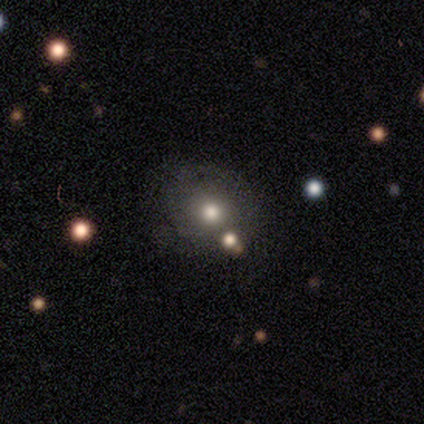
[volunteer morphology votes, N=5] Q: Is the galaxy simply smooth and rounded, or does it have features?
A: smooth — 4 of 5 (80%).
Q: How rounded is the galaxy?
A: round — 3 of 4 (75%).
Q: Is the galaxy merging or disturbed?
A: none — 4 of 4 (100%).